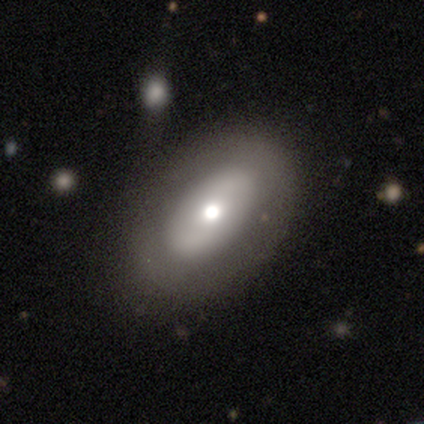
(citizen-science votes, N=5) A featured or disk galaxy (60%) with no bar (100%), no spiral arms (67%) and a large central bulge (33%, tied with moderate and small). Merging: none (80%).